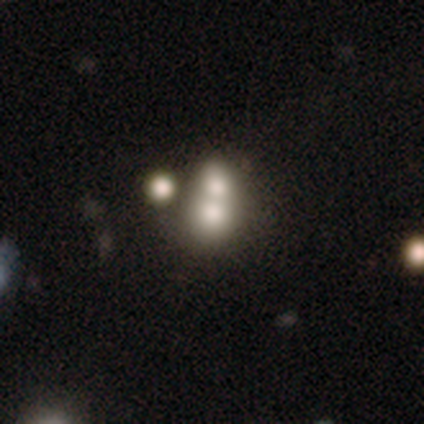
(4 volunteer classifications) Overall: smooth (50%, tied with star or artifact). How rounded: round (100%). Merging: none (50%, tied with merger).